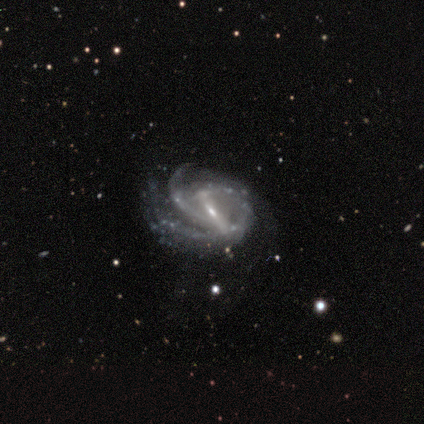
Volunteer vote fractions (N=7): Overall: featured or disk (100%). Edge-on disk: no (100%). Bar: strong (71%). Spiral arms: yes (100%). Spiral arm count: 2 (43%; 3 29%). Spiral winding: medium (57%; tight 29%). Bulge size: small (86%). Merging: none (57%; minor disturbance 29%).